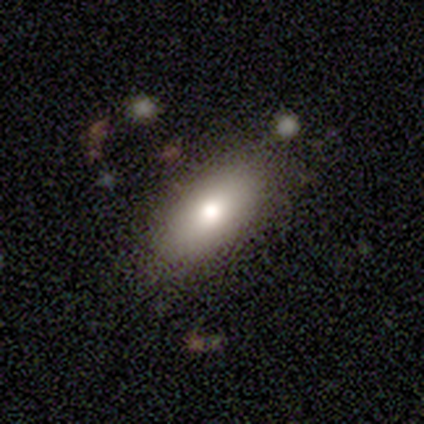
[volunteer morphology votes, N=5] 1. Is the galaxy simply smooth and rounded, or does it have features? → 40% smooth (tied), 40% featured or disk (tied), 20% star or artifact.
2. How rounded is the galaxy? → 100% in between, 0% round, 0% cigar-shaped.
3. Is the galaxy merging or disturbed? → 50% none, 25% minor disturbance, 25% major disturbance, 0% merger.